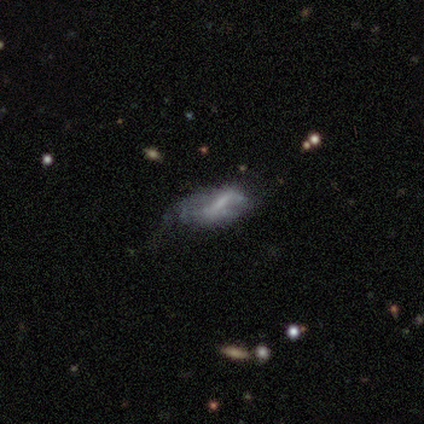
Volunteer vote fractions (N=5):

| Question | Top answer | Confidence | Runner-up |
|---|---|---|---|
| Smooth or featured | featured or disk | 60% | smooth (40%) |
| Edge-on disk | no | 100% | — |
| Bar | strong | 33% | tied: weak (33%), no (33%) |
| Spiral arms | no | 100% | — |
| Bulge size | moderate | 33% | tied: small (33%), none (33%) |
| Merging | none | 60% | minor disturbance (20%) |